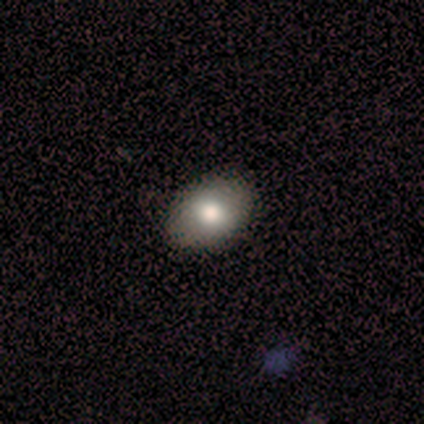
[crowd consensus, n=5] This is clearly a smooth galaxy (80%). How rounded: likely round (75%). Merging: clearly none (100%).